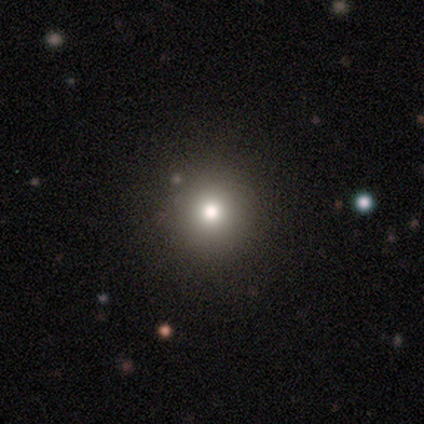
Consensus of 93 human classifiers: smooth 73%, star or artifact 17%, featured or disk 10%. Down the decision tree: how rounded — round (99%); merging — none (91%).